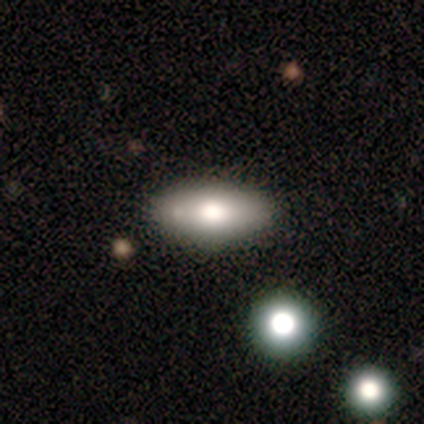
Morphology: type=featured or disk (60%); edge-on=yes (67%); edge-on bulge=rounded (100%); merging=none (80%).